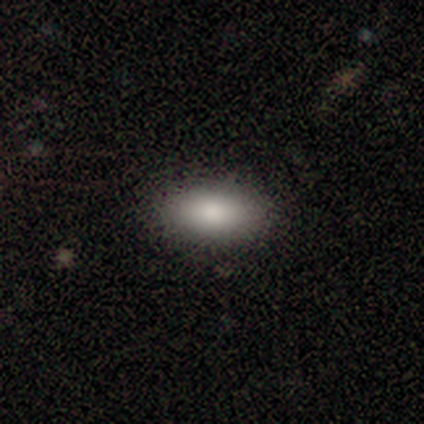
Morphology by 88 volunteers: Smooth or featured? smooth (90%)
How rounded? in between (86%)
Merging? none (80%)